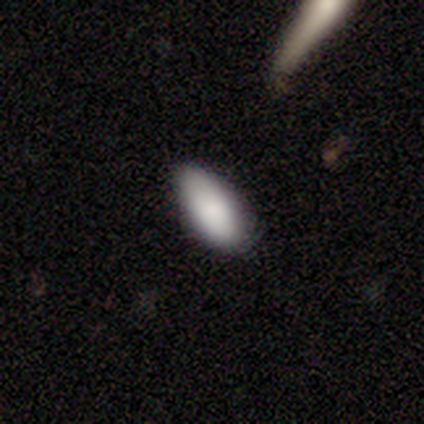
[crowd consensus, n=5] Smooth or featured? 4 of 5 (80%) said smooth. How rounded? 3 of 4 (75%) said in between. Merging? 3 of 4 (75%) said none.